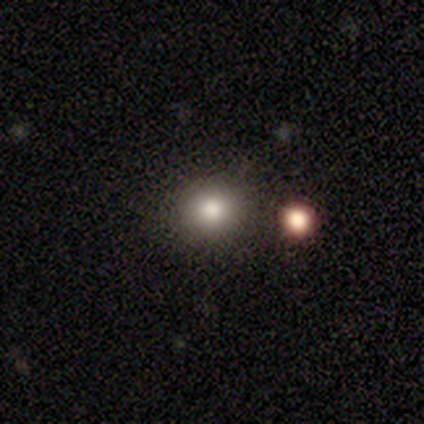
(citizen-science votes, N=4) This is clearly a smooth galaxy (100%). How rounded: possibly round (50%, tied with in between). Merging: clearly none (100%).